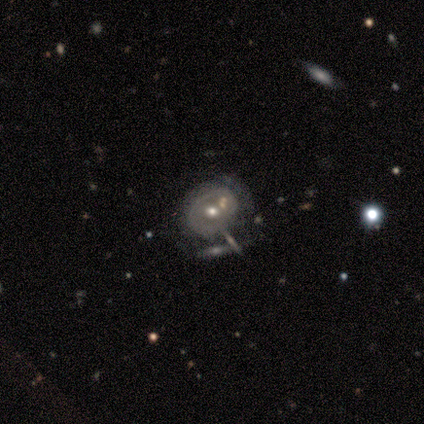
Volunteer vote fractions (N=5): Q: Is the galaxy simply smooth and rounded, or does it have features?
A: smooth — 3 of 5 (60%).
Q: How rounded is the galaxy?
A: in between — 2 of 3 (67%).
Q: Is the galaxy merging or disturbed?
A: minor disturbance — 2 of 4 (50%).